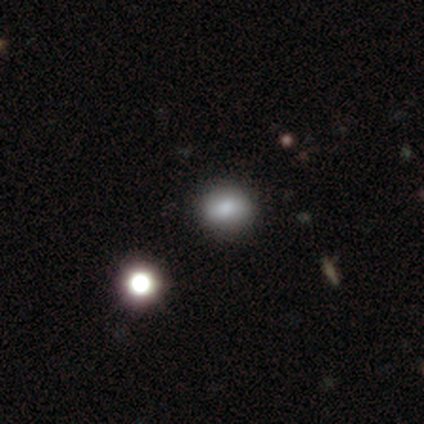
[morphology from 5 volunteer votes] Smooth or featured: star or artifact — 60% (smooth — 40%)